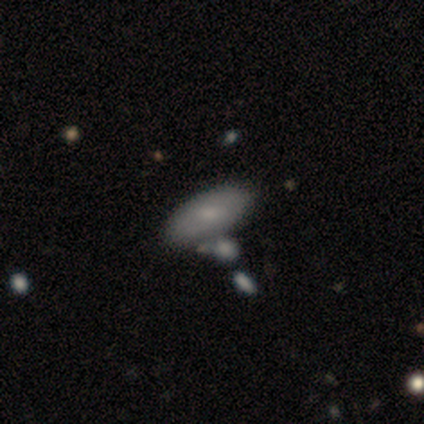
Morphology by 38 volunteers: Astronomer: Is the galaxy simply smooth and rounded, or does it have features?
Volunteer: smooth — 61%.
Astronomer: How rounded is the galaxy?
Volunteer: in between — 96%.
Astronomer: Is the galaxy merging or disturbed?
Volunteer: none — 52%.